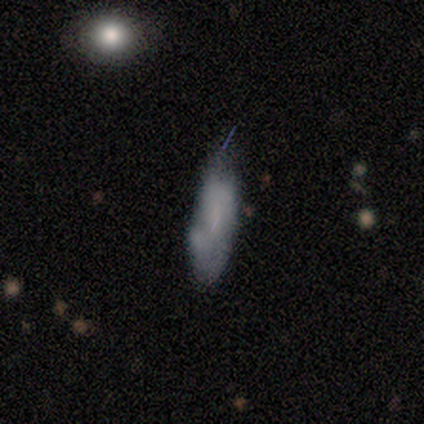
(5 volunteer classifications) This appears to be a smooth galaxy with no disk features (80%) that is in between round and cigar-shaped (50%, tied with cigar-shaped). Merging: none (40%, tied with minor disturbance).